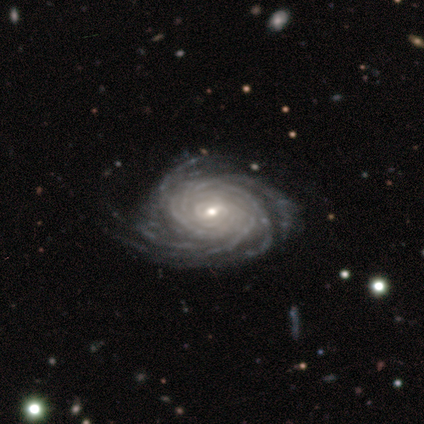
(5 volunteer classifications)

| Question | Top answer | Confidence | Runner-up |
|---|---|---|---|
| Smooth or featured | featured or disk | 100% | — |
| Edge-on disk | no | 100% | — |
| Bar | strong | 40% | tied: weak (40%) |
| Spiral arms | yes | 100% | — |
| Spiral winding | tight | 100% | — |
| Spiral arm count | more than 4 | 60% | 4 (20%) |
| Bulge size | small | 60% | large (20%) |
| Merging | none | 80% | major disturbance (20%) |